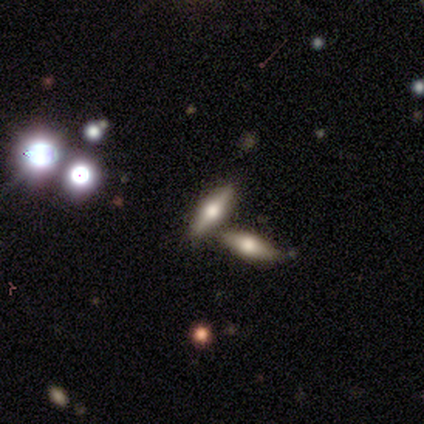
Smooth or featured? 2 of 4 (50%) said featured or disk. Edge-on disk? 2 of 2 (100%) said yes. Edge-on bulge? 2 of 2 (100%) said rounded. Merging? 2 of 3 (67%) said merger.